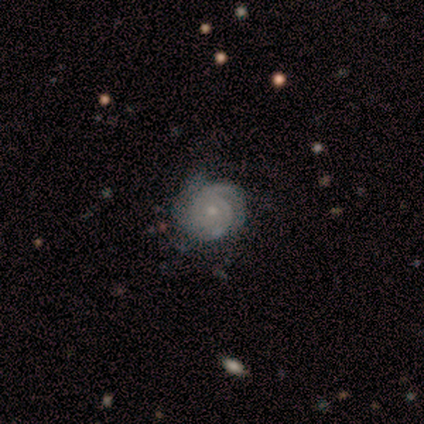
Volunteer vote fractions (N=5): A featured or disk galaxy (80%) with no bar (50%), 2 (50%, tied with can't tell) tight (50%, tied with medium) spiral arms (100%) and a small central bulge (75%). Merging: none (80%).